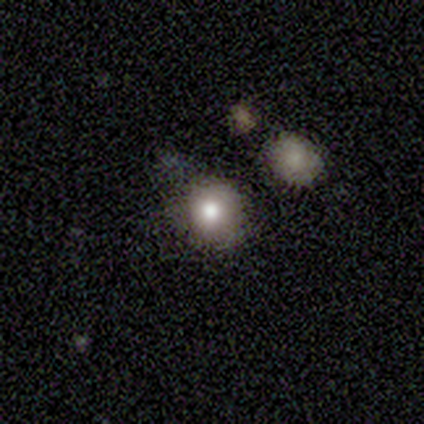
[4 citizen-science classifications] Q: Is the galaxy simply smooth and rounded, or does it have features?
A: smooth — 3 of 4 (75%).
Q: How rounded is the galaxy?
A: round — 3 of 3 (100%).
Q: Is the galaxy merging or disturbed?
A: none — 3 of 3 (100%).